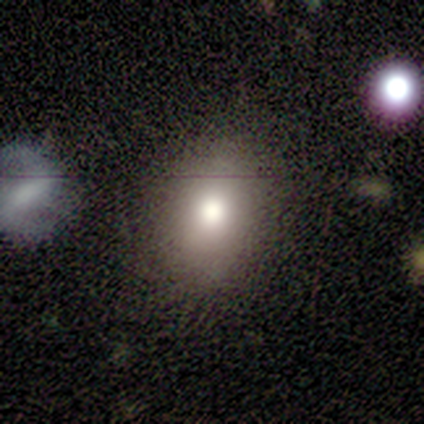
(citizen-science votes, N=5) Smooth or featured?
  - smooth: 80% *
  - star or artifact: 20%
  - featured or disk: 0%
How rounded?
  - in between: 100% *
  - round: 0%
  - cigar-shaped: 0%
Merging?
  - none: 75% *
  - major disturbance: 25%
  - minor disturbance: 0%
  - merger: 0%